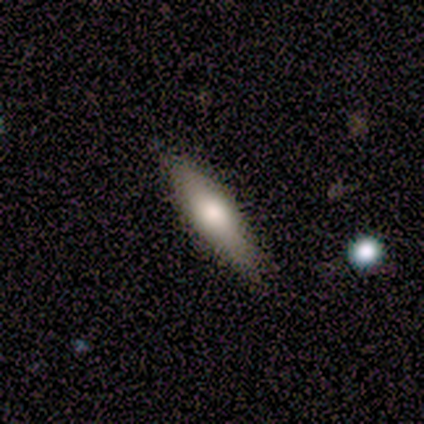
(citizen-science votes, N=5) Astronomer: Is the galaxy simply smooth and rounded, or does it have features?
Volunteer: smooth — 60% (runner-up: featured or disk, 40%).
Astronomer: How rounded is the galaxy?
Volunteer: cigar-shaped — 100%.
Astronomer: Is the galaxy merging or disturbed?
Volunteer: none — 80%.